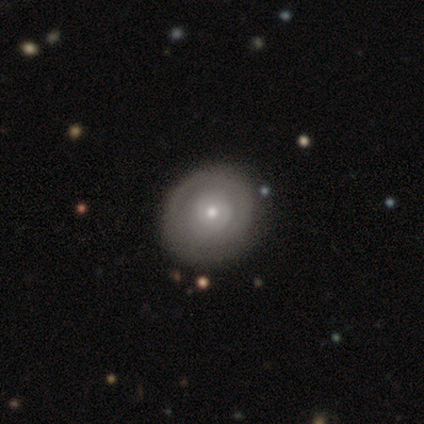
Smooth or featured? 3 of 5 (60%) said featured or disk. Edge-on disk? 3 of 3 (100%) said no. Bar? 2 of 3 (67%) said no. Spiral arms? 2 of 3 (67%) said yes. Spiral winding? 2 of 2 (100%) said tight. Spiral arm count? 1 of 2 (50%, tied with can't tell) said 1. Bulge size? 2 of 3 (67%) said small. Merging? 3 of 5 (60%) said none.